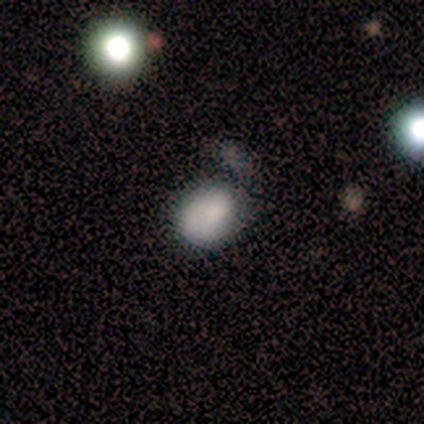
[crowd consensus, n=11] Smooth or featured: smooth — 64% (featured or disk — 27%)
How rounded: in between — 57% (round — 43%)
Merging: none — 50% (minor disturbance — 20%)